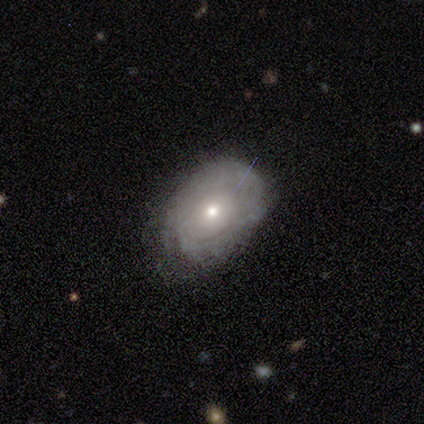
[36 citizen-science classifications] Morphology: type=featured or disk (58%); edge-on=no (100%); bar=no (95%); spiral arms=yes (67%); winding=tight (71%); arm count=can't tell (86%); bulge=moderate (52%); merging=none (67%).